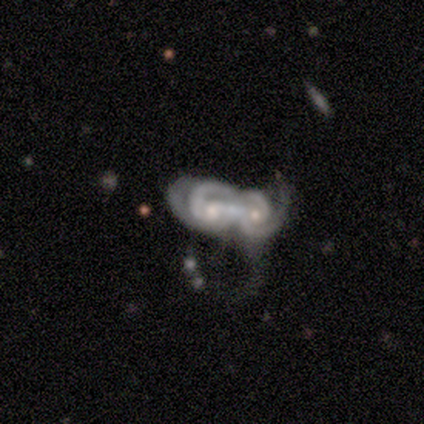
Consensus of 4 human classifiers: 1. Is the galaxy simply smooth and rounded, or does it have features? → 75% featured or disk, 25% smooth, 0% star or artifact.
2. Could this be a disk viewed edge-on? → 100% no, 0% yes.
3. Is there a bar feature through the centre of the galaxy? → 67% weak, 33% no, 0% strong.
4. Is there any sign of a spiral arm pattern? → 100% yes, 0% no.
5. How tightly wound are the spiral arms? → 100% medium, 0% tight, 0% loose.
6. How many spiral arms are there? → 100% 2, 0% 1, 0% 3, 0% 4, 0% more than 4, 0% can't tell.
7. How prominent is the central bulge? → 100% moderate, 0% dominant, 0% large, 0% small, 0% none.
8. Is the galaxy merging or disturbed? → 75% merger, 25% minor disturbance, 0% none, 0% major disturbance.